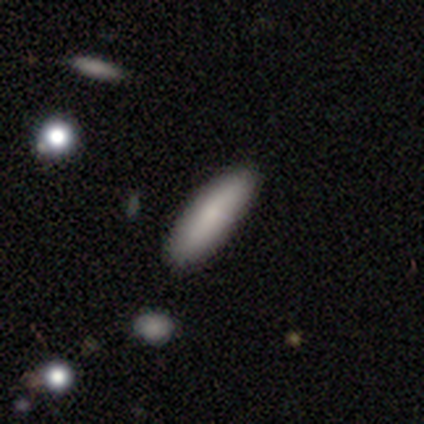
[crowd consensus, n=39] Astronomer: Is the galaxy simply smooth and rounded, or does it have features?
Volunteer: smooth — 77%.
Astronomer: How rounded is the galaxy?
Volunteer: cigar-shaped — 60% (runner-up: in between, 40%).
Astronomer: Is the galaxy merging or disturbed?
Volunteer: none — 92%.